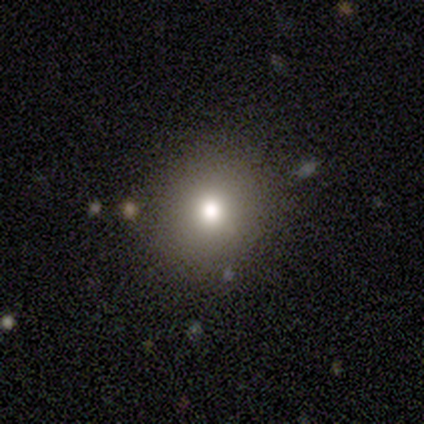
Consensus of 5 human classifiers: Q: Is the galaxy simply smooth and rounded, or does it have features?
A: smooth — 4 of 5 (80%).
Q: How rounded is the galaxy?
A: round — 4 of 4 (100%).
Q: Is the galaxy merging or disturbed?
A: none — 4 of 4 (100%).